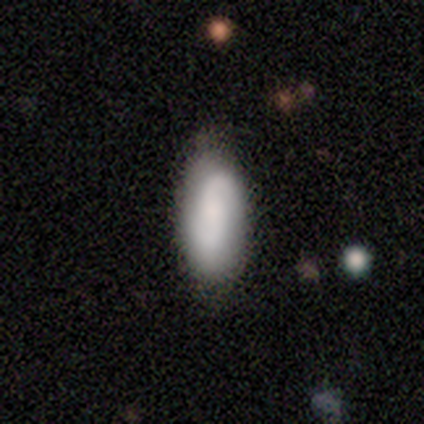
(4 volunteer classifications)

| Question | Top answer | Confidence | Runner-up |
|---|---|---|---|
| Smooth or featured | smooth | 75% | featured or disk (25%) |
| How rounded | in between | 100% | — |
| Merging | none | 50% | tied: minor disturbance (50%) |